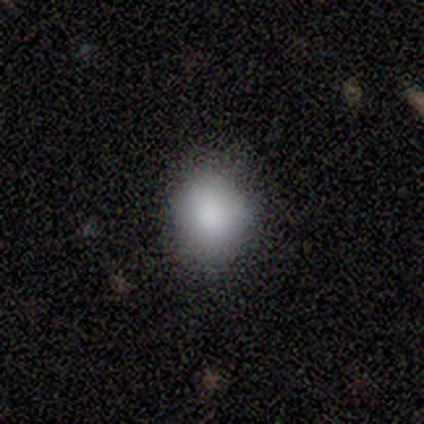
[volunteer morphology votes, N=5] Overall: smooth (80%). How rounded: round (50%, tied with in between). Merging: none (60%; minor disturbance 40%).